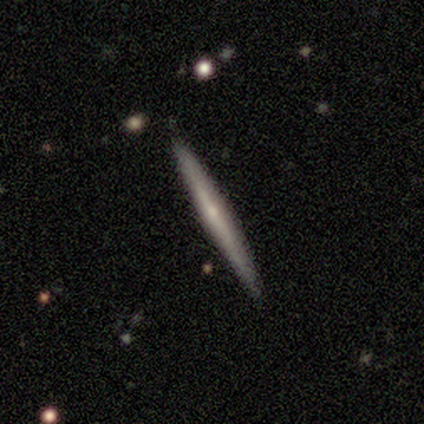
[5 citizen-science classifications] Smooth or featured?
  - featured or disk: 80% *
  - smooth: 20%
  - star or artifact: 0%
Edge-on disk?
  - yes: 100% *
  - no: 0%
Edge-on bulge?
  - rounded: 100% *
  - boxy: 0%
  - none: 0%
Merging?
  - none: 100% *
  - minor disturbance: 0%
  - major disturbance: 0%
  - merger: 0%